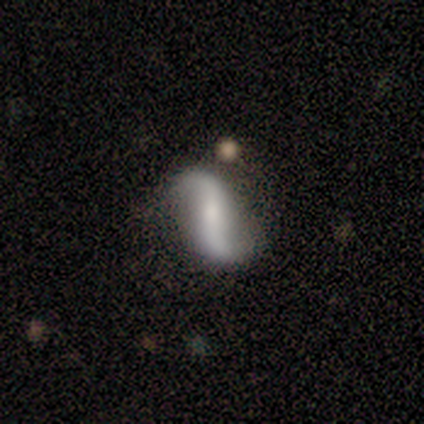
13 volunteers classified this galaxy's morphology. Smooth or featured: featured or disk — 92% (smooth — 8%)
Edge-on disk: no — 100%
Bar: strong — 58% (no — 42%)
Spiral arms: yes — 100%
Spiral winding: loose — 92% (medium — 8%)
Spiral arm count: 2 — 92% (1 — 8%)
Bulge size: small — 50% (moderate — 25%)
Merging: none — 69% (minor disturbance — 23%)